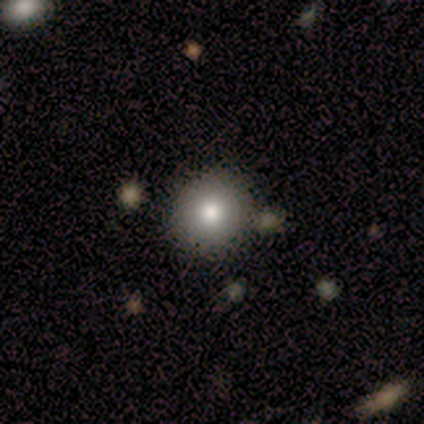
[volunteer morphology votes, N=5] A smooth galaxy with no disk features (80%) that is round (100%).

Vote fractions:
- Smooth or featured? smooth: 80% / star or artifact: 20% / featured or disk: 0%
- How rounded? round: 100% / in between: 0% / cigar-shaped: 0%
- Merging? none: 100% / minor disturbance: 0% / major disturbance: 0% / merger: 0%